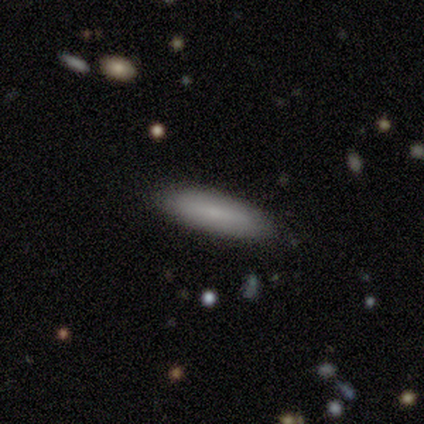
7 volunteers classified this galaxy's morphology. type=smooth (86%); roundness=in between (67%); merging=none (86%).